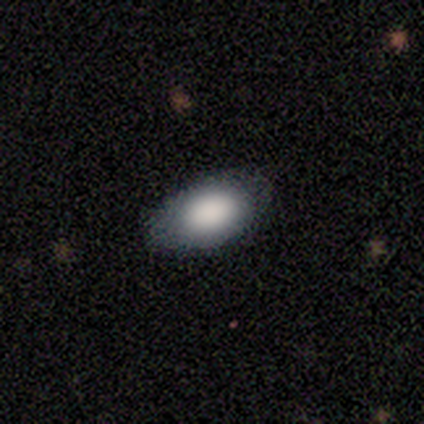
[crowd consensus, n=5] Overall: smooth (80%). How rounded: round (50%, tied with in between). Merging: none (75%).